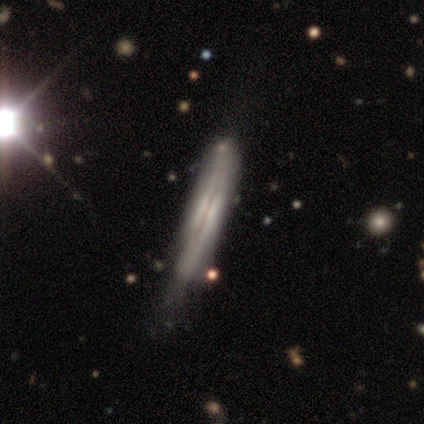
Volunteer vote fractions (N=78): featured or disk 76%, smooth 21%, star or artifact 4%. Down the decision tree: edge-on disk — yes (95%); edge-on bulge — none (55%); merging — none (36%).